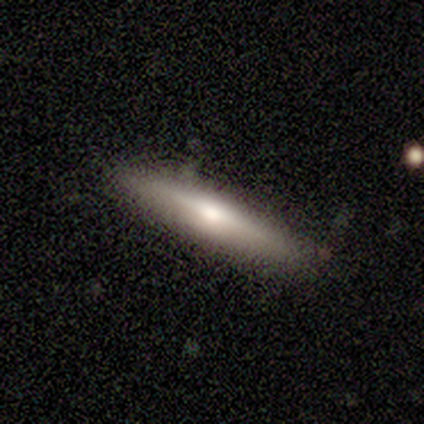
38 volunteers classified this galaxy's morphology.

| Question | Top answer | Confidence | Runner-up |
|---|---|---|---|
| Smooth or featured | smooth | 47% | featured or disk (45%) |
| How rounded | cigar-shaped | 89% | in between (11%) |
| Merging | none | 83% | minor disturbance (14%) |